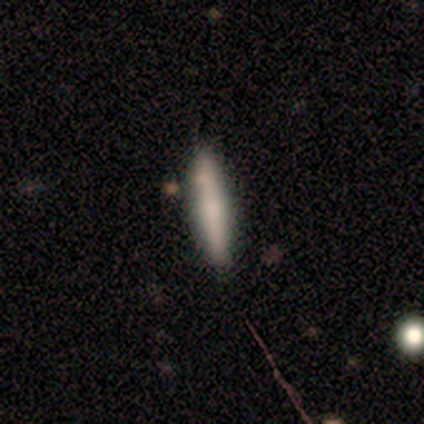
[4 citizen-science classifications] Smooth or featured?
  - smooth: 50% * (tied)
  - featured or disk: 50% * (tied)
  - star or artifact: 0%
How rounded?
  - in between: 50% * (tied)
  - cigar-shaped: 50% * (tied)
  - round: 0%
Merging?
  - none: 100% *
  - minor disturbance: 0%
  - major disturbance: 0%
  - merger: 0%